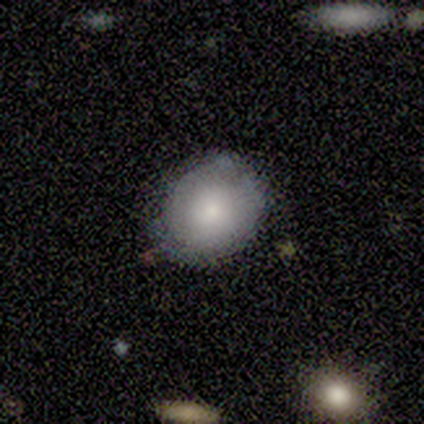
Smooth or featured?
  - smooth: 75% *
  - featured or disk: 25%
  - star or artifact: 0%
How rounded?
  - round: 67% *
  - in between: 33%
  - cigar-shaped: 0%
Merging?
  - none: 50% *
  - minor disturbance: 25%
  - merger: 25%
  - major disturbance: 0%